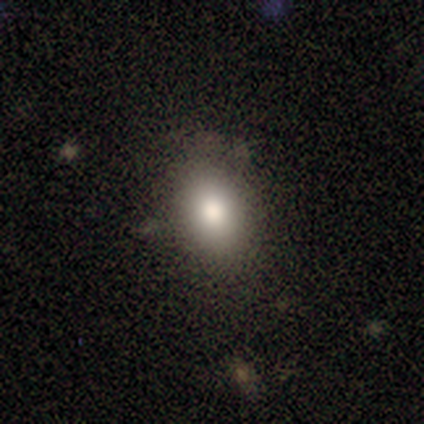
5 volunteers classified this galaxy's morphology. Overall: smooth (80%). How rounded: in between (75%). Merging: none (100%).